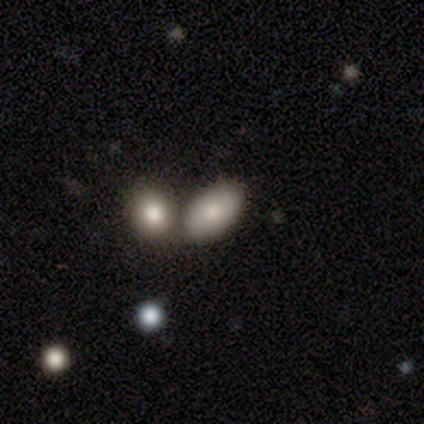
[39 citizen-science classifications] This is clearly a smooth galaxy (87%). How rounded: clearly in between (91%). Merging: likely merger (76%).